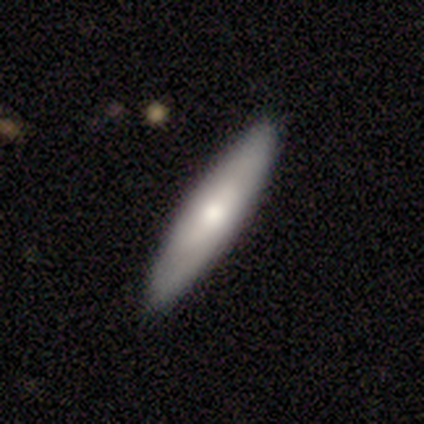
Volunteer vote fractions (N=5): Smooth or featured? smooth (60%)
How rounded? cigar-shaped (67%)
Merging? none (80%)